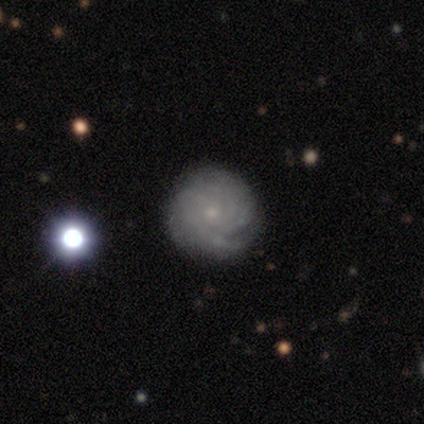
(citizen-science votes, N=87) Morphology: type=featured or disk (75%); edge-on=no (97%); bar=no (83%); spiral arms=yes (98%); winding=tight (77%); arm count=can't tell (55%); bulge=small (86%); merging=none (90%).